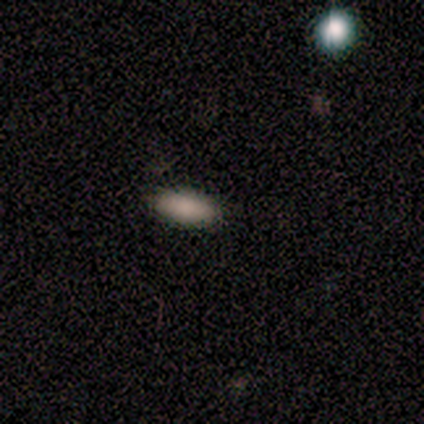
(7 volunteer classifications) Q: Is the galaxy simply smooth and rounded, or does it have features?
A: smooth — 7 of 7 (100%).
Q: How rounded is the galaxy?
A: in between — 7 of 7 (100%).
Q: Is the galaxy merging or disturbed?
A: none — 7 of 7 (100%).